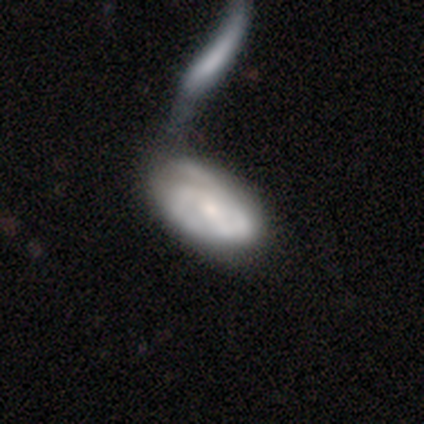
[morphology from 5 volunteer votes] type=smooth (60%); roundness=in between (100%); merging=none (60%).